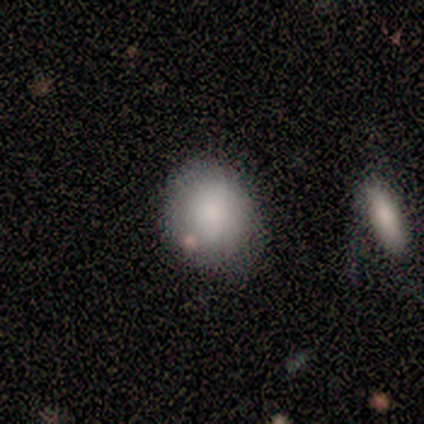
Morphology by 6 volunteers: A smooth galaxy with no disk features (100%) that is round (67%).

Vote fractions:
- Smooth or featured? smooth: 100% / featured or disk: 0% / star or artifact: 0%
- How rounded? round: 67% / in between: 33% / cigar-shaped: 0%
- Merging? none: 67% / minor disturbance: 33% / major disturbance: 0% / merger: 0%